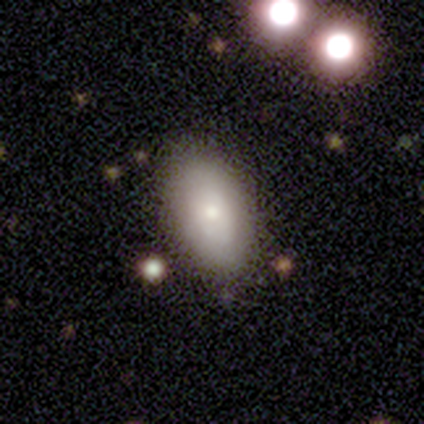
Volunteers were most divided on "smooth or featured": smooth: 77%, featured or disk: 21%, star or artifact: 3%. More confident: how rounded — in between (93%); merging — none (79%).